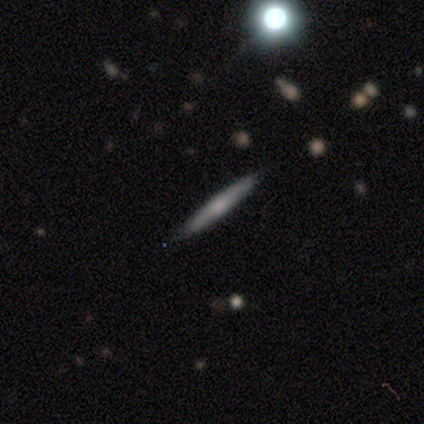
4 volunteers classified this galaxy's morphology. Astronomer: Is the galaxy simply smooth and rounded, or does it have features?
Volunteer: featured or disk — 75%.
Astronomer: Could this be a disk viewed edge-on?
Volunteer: yes — 100%.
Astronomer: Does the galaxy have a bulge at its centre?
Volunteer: none — 67%.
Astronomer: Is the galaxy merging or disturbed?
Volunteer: none — 75%.